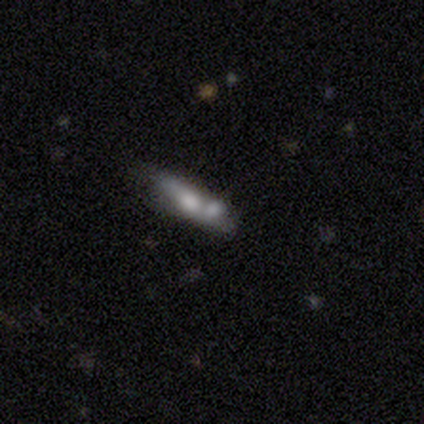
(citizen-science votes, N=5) Smooth or featured: smooth — 60% (featured or disk — 20%)
How rounded: cigar-shaped — 67% (in between — 33%)
Merging: none — 75% (merger — 25%)